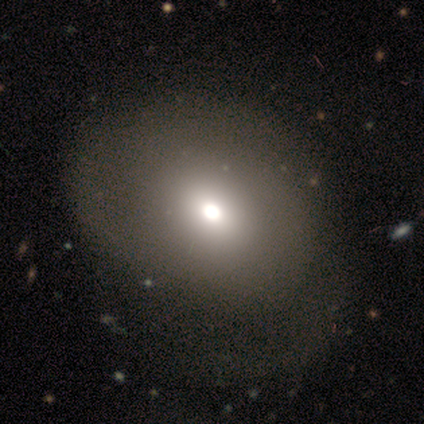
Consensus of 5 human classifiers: This is clearly a smooth galaxy (80%). How rounded: clearly in between (100%). Merging: possibly none (50%).